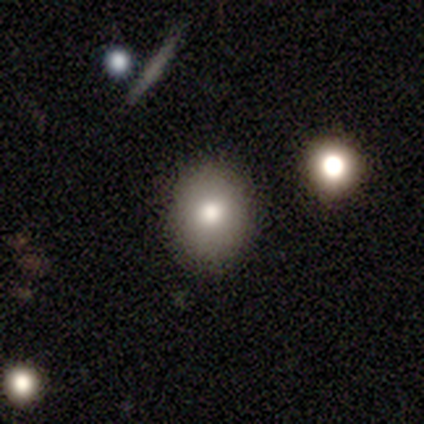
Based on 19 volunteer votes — Morphology: type=smooth (89%); roundness=in between (65%); merging=none (100%).